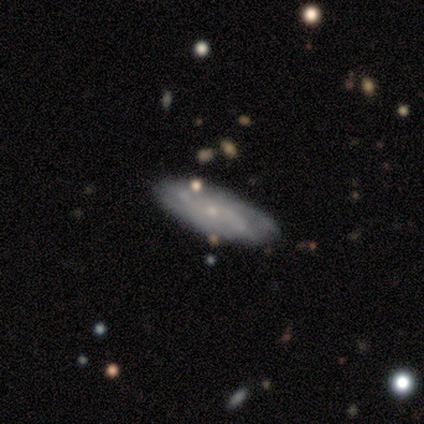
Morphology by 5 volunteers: This appears to be a featured or disk galaxy (60%) with no bar (67%), 2 (67%) medium (100%) spiral arms (100%) and a moderate central bulge (33%, tied with small and none). Merging: none (100%).